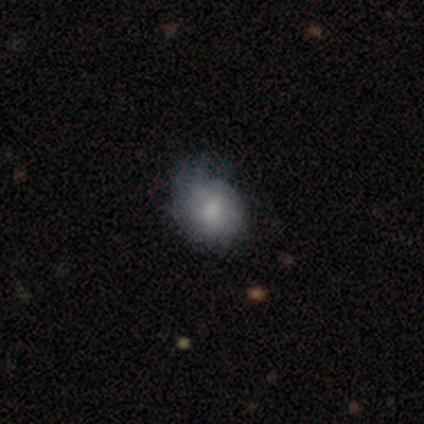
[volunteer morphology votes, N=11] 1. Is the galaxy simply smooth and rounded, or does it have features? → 82% smooth, 9% featured or disk, 9% star or artifact.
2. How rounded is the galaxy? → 67% round, 33% in between, 0% cigar-shaped.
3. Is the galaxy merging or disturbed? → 70% minor disturbance, 30% none, 0% major disturbance, 0% merger.